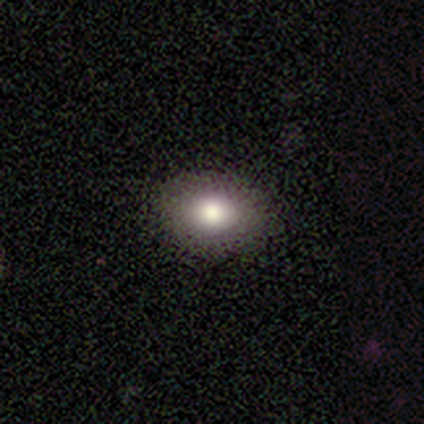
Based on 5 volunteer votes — smooth 60%, star or artifact 40%, featured or disk 0%. Down the decision tree: how rounded — in between (67%); merging — none (100%).